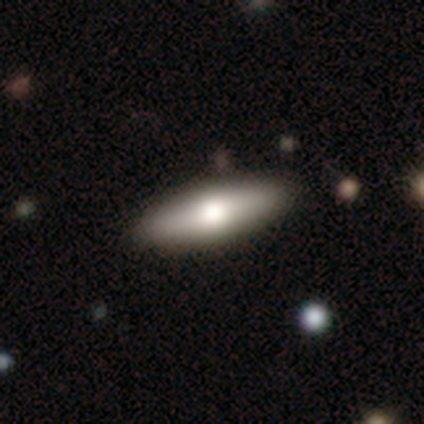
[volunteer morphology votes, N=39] smooth_or_featured: smooth (p=0.49) [alt: featured or disk p=0.46]
how_rounded: cigar-shaped (p=0.53) [alt: in between p=0.47]
merging: none (p=0.59) [alt: merger p=0.08]